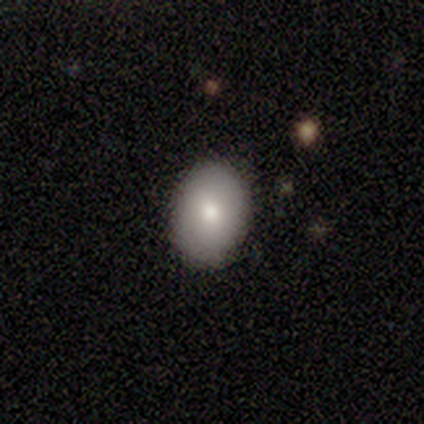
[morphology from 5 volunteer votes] smooth 80%, star or artifact 20%, featured or disk 0%. Down the decision tree: how rounded — in between (100%); merging — none (75%).